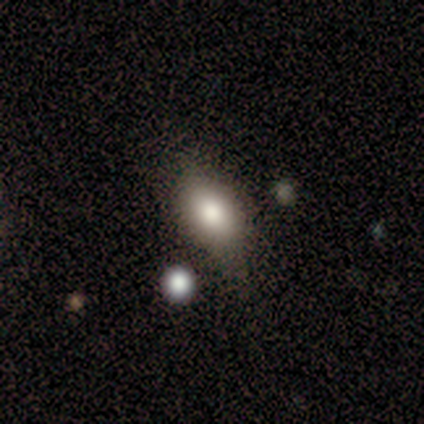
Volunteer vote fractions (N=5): A smooth galaxy with no disk features (80%) that is in between round and cigar-shaped (100%).

Vote fractions:
- Smooth or featured? smooth: 80% / star or artifact: 20% / featured or disk: 0%
- How rounded? in between: 100% / round: 0% / cigar-shaped: 0%
- Merging? none: 75% / minor disturbance: 25% / major disturbance: 0% / merger: 0%